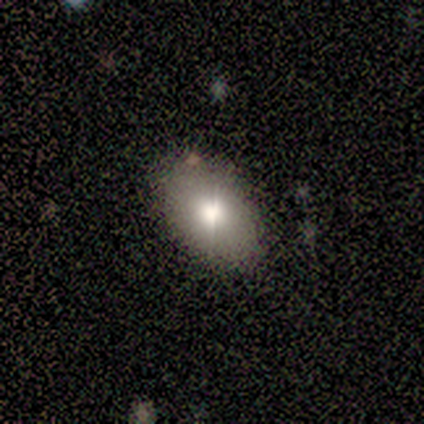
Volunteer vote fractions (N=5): Overall: smooth (80%). How rounded: in between (75%). Merging: none (75%).